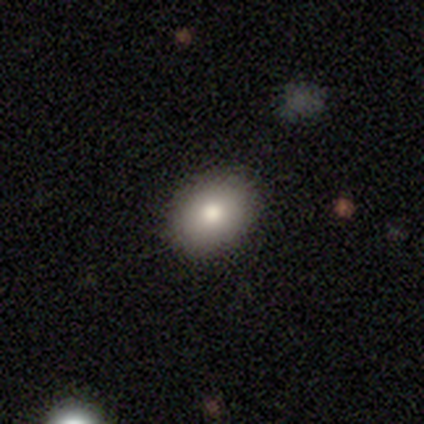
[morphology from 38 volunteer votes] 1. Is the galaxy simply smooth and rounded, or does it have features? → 82% smooth, 13% star or artifact, 5% featured or disk.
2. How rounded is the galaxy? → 58% in between, 42% round, 0% cigar-shaped.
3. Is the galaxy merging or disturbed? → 85% none, 12% minor disturbance, 3% major disturbance, 0% merger.